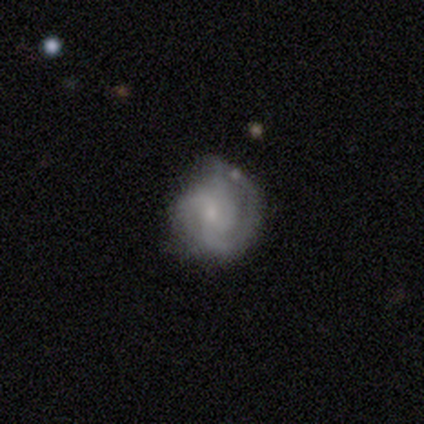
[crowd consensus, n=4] Overall: featured or disk (100%). Edge-on disk: no (100%). Bar: weak (50%, tied with no). Spiral arms: yes (100%). Spiral arm count: 3 (50%; 1 25%). Spiral winding: tight (50%; medium 25%). Bulge size: small (50%; moderate 25%). Merging: none (75%).